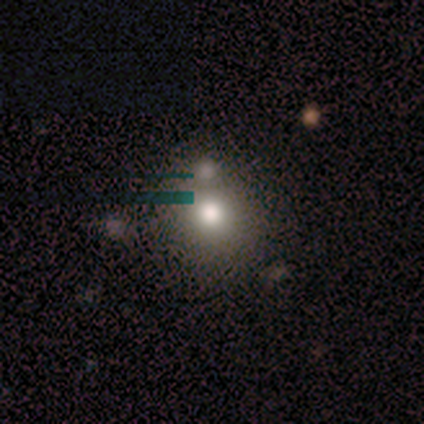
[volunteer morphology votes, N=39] smooth-or-featured: smooth: 62% | star or artifact: 23% | featured or disk: 15%
  how-rounded: round: 96% | in between: 4% | cigar-shaped: 0%
  merging: none: 50% | merger: 33% | minor disturbance: 13% | major disturbance: 3%